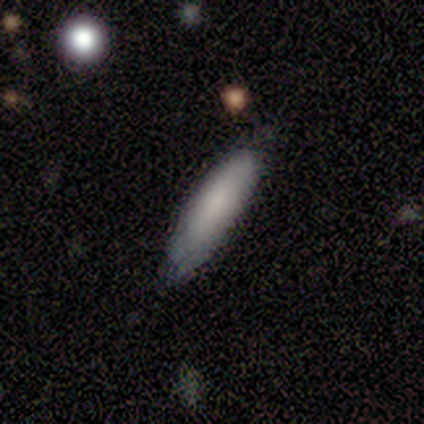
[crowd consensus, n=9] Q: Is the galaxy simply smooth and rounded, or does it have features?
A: smooth — 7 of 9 (78%).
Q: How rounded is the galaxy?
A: cigar-shaped — 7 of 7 (100%).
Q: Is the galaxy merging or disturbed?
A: none — 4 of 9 (44%, tied with minor disturbance).